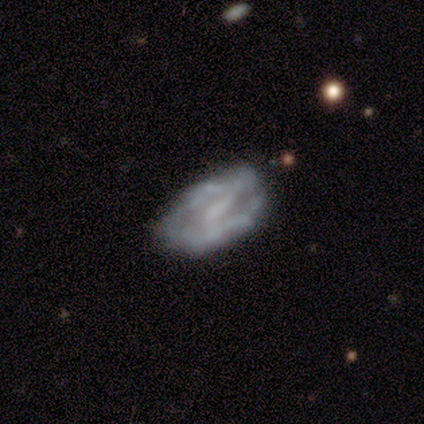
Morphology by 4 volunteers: This appears to be a smooth galaxy with no disk features (50%, tied with featured or disk) that is in between round and cigar-shaped (100%). Merging: none (50%).